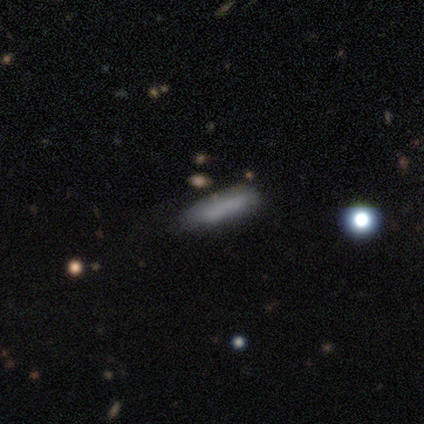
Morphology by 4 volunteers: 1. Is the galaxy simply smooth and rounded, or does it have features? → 100% smooth, 0% featured or disk, 0% star or artifact.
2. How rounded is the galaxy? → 50% in between (tied), 50% cigar-shaped (tied), 0% round.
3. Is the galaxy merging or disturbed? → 75% none, 25% minor disturbance, 0% major disturbance, 0% merger.